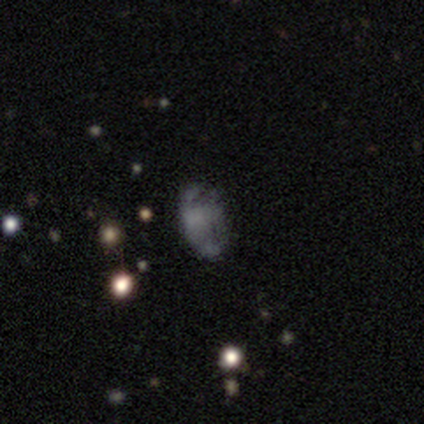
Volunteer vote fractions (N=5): smooth-or-featured: smooth: 60% | star or artifact: 40% | featured or disk: 0%
  how-rounded: in between: 100% | round: 0% | cigar-shaped: 0%
  merging: none: 67% | minor disturbance: 33% | major disturbance: 0% | merger: 0%